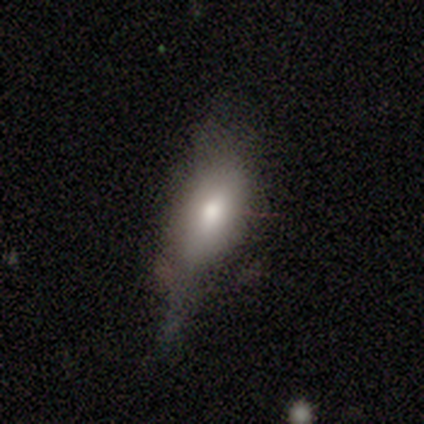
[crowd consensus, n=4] Overall: smooth (50%, tied with featured or disk). How rounded: in between (50%, tied with cigar-shaped). Merging: none (75%).